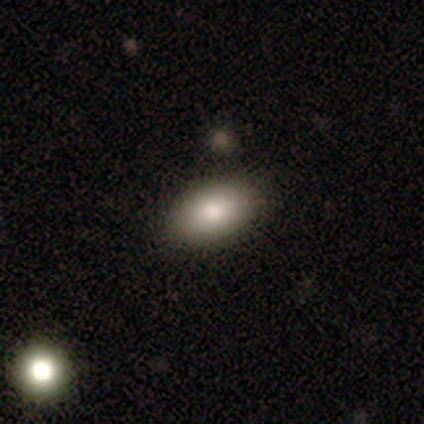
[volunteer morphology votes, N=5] Smooth or featured: smooth — 60% (star or artifact — 40%)
How rounded: in between — 100%
Merging: none — 100%